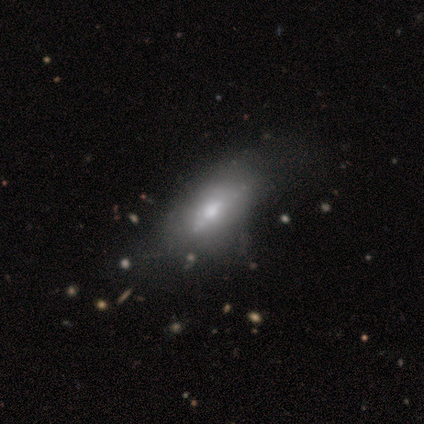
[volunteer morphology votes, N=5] Smooth or featured: featured or disk — 60% (smooth — 20%)
Edge-on disk: no — 100%
Bar: strong — 33% (tied with weak — 33%; no — 33%)
Spiral arms: no — 100%
Bulge size: moderate — 100%
Merging: none — 25% (tied with minor disturbance — 25%; major disturbance — 25%; merger — 25%)